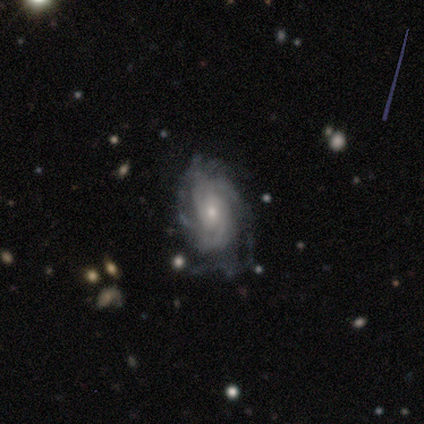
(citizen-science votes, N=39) Smooth or featured? 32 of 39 (82%) said featured or disk. Edge-on disk? 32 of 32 (100%) said no. Bar? 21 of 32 (66%) said no. Spiral arms? 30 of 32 (94%) said yes. Spiral winding? 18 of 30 (60%) said tight. Spiral arm count? 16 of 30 (53%) said can't tell. Bulge size? 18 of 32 (56%) said small. Merging? 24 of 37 (65%) said none.